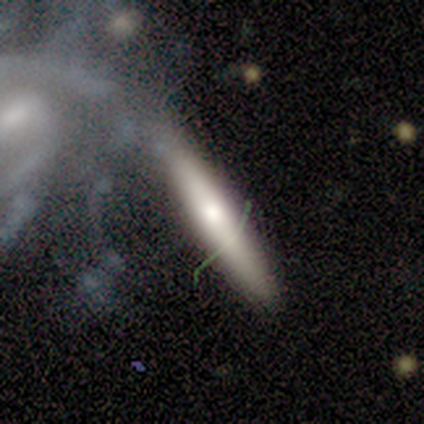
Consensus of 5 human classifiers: smooth-or-featured: featured or disk: 60% | smooth: 20% | star or artifact: 20%
  disk-edge-on: yes: 100% | no: 0%
    edge-on-bulge: none: 67% | rounded: 33% | boxy: 0%
  merging: merger: 50% | none: 25% | major disturbance: 25% | minor disturbance: 0%